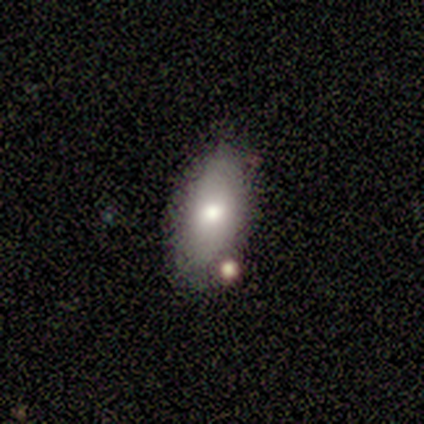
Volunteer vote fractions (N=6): Smooth or featured?
  - smooth: 83% *
  - star or artifact: 17%
  - featured or disk: 0%
How rounded?
  - in between: 100% *
  - round: 0%
  - cigar-shaped: 0%
Merging?
  - none: 60% *
  - merger: 40%
  - minor disturbance: 0%
  - major disturbance: 0%